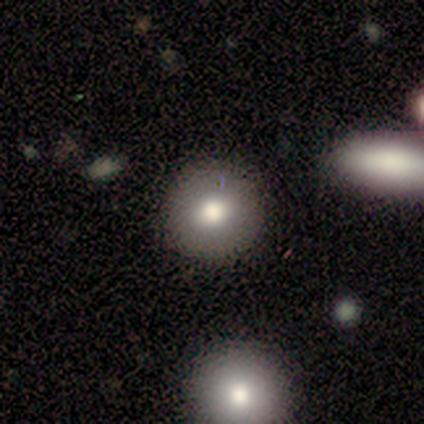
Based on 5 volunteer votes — Smooth or featured?
  - smooth: 60% *
  - featured or disk: 40%
  - star or artifact: 0%
How rounded?
  - round: 100% *
  - in between: 0%
  - cigar-shaped: 0%
Merging?
  - none: 80% *
  - minor disturbance: 20%
  - major disturbance: 0%
  - merger: 0%